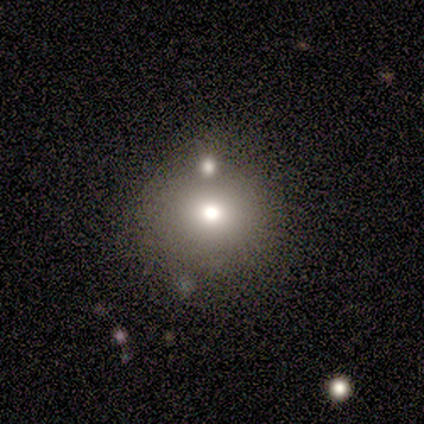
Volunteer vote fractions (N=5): Smooth or featured: smooth — 80% (featured or disk — 20%)
How rounded: round — 100%
Merging: none — 80% (major disturbance — 20%)